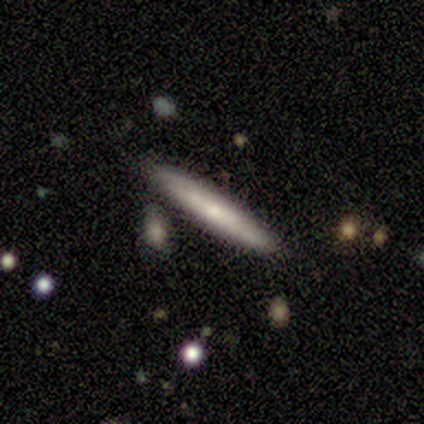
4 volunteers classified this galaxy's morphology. type=featured or disk (50%); edge-on=yes (50%, tied with no); edge-on bulge=rounded (100%); merging=none (100%).